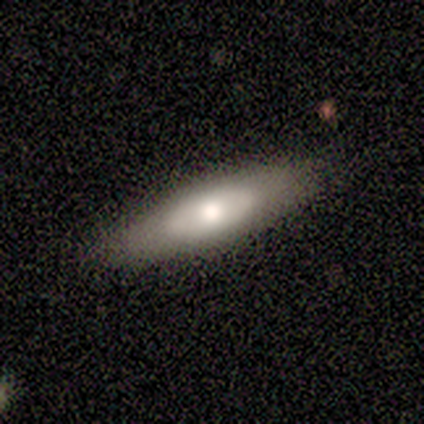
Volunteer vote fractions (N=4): Q: Smooth or featured?
A: smooth (50%); tied with: featured or disk (50%)
Q: How rounded?
A: in between (100%)
Q: Merging?
A: none (75%); runner-up: minor disturbance (25%)